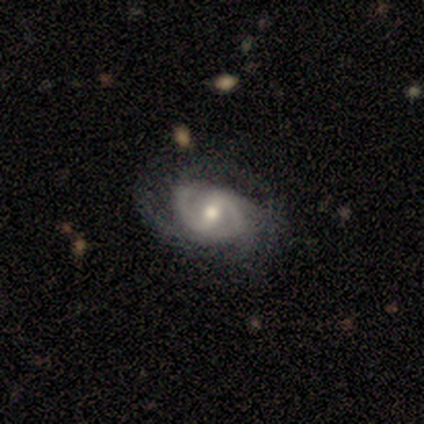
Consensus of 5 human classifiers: Smooth or featured: featured or disk — 80% (smooth — 20%)
Edge-on disk: no — 100%
Bar: strong — 75% (weak — 25%)
Spiral arms: yes — 75% (no — 25%)
Spiral winding: tight — 100%
Spiral arm count: 2 — 100%
Bulge size: moderate — 75% (small — 25%)
Merging: none — 60% (minor disturbance — 20%)